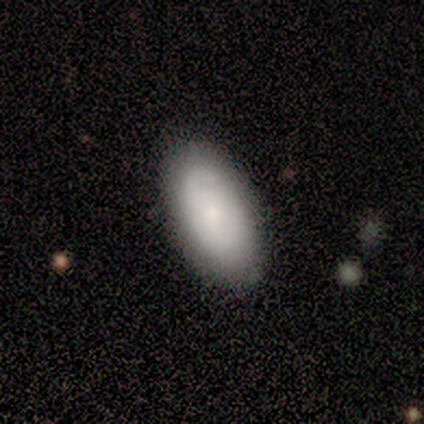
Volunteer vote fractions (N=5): This appears to be a featured or disk galaxy (60%) with no bar (100%), no spiral arms (67%) and a moderate central bulge (67%). Merging: none (100%).